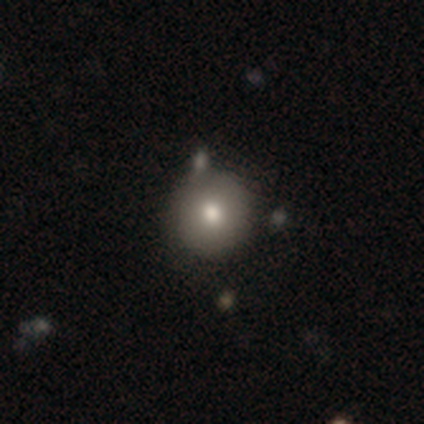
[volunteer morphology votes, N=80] Volunteers were most divided on "merging": none: 38%, merger: 14%, minor disturbance: 8%, major disturbance: 0%. More confident: how rounded — round (96%); smooth or featured — smooth (85%).